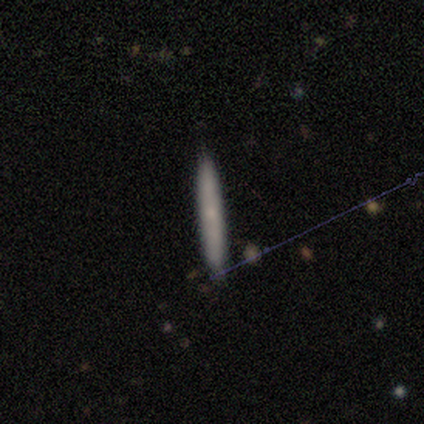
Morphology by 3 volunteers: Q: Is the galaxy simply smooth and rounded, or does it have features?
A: featured or disk — 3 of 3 (100%).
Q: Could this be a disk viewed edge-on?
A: yes — 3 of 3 (100%).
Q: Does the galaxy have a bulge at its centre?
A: none — 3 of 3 (100%).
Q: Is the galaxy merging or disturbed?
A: minor disturbance — 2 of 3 (67%).